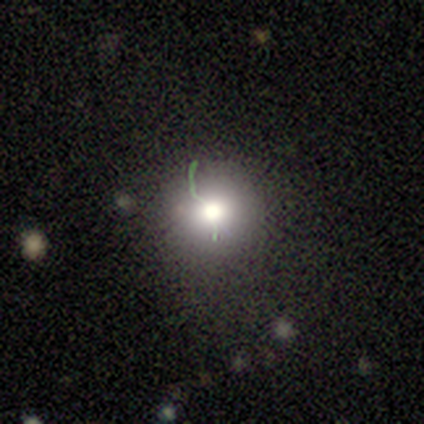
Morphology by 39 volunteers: type=smooth (62%); roundness=round (92%); merging=none (65%).